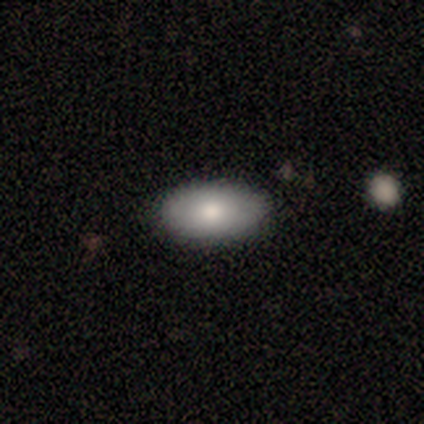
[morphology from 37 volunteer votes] Overall: smooth (70%). How rounded: in between (96%). Merging: none (74%).